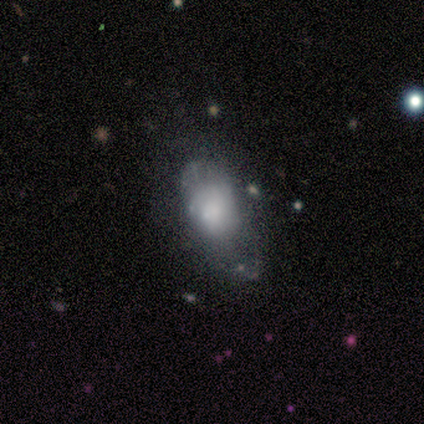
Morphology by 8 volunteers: type=smooth (50%, tied with featured or disk); roundness=in between (100%); merging=none (75%).